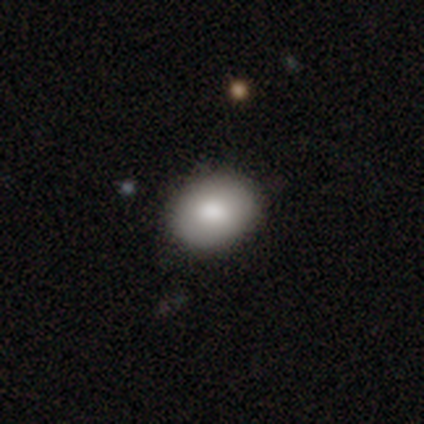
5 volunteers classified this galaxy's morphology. A smooth galaxy with no disk features (60%) that is in between round and cigar-shaped (100%).

Vote fractions:
- Smooth or featured? smooth: 60% / featured or disk: 40% / star or artifact: 0%
- How rounded? in between: 100% / round: 0% / cigar-shaped: 0%
- Merging? none: 80% / minor disturbance: 20% / major disturbance: 0% / merger: 0%